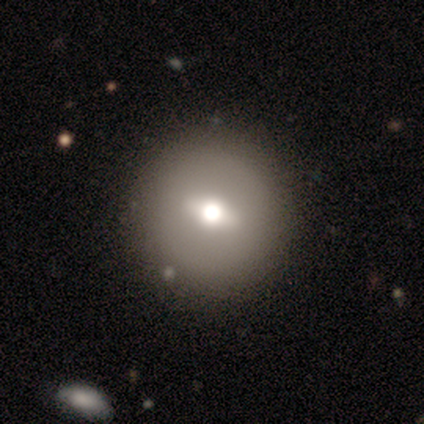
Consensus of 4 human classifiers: featured or disk 50%, smooth 25%, star or artifact 25%. Down the decision tree: edge-on disk — no (100%); bar — strong (50%, tied with weak); spiral arms — no (100%); bulge size — large (50%, tied with moderate); merging — none (100%).